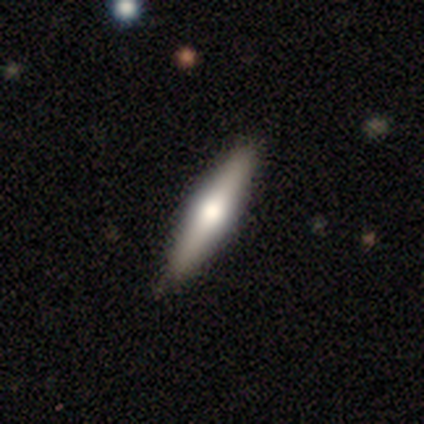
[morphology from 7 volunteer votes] Smooth or featured? smooth (71%)
How rounded? cigar-shaped (100%)
Merging? none (86%)